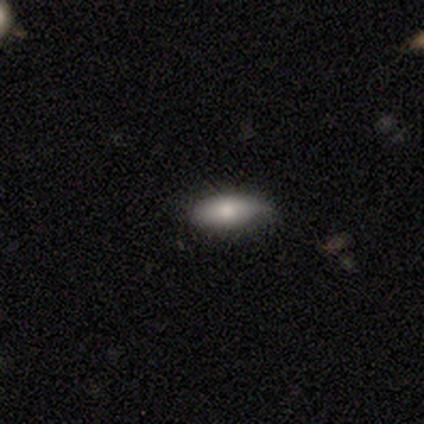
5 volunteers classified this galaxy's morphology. type=smooth (100%); roundness=cigar-shaped (60%); merging=none (40%, tied with minor disturbance).